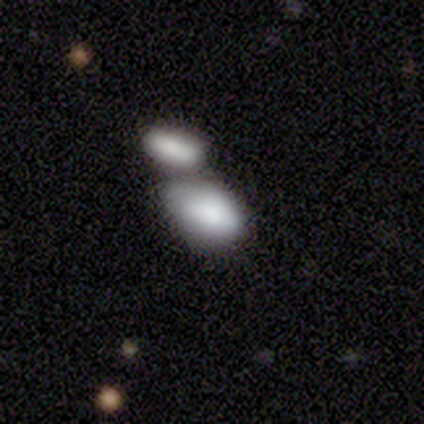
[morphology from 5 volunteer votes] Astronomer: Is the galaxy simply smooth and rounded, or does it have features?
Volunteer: smooth — 80%.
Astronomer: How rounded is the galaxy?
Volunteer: in between — 100%.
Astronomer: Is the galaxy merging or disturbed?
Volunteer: merger — 100%.